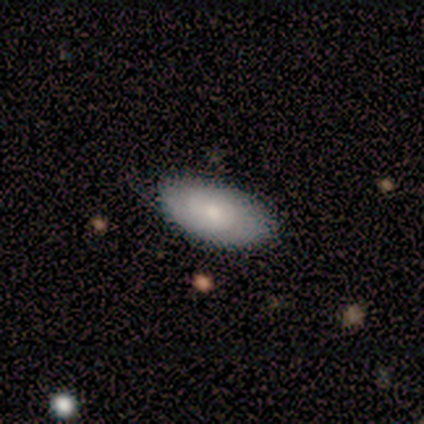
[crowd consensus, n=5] smooth-or-featured: smooth: 60% | featured or disk: 20% | star or artifact: 20%
  how-rounded: in between: 100% | round: 0% | cigar-shaped: 0%
  merging: none: 100% | minor disturbance: 0% | major disturbance: 0% | merger: 0%